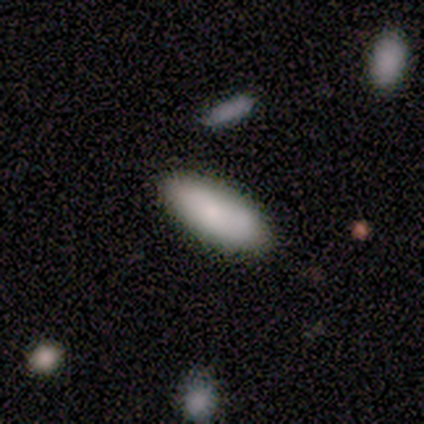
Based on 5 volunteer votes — This appears to be a smooth galaxy with no disk features (80%) that is in between round and cigar-shaped (50%, tied with cigar-shaped). Merging: none (100%).